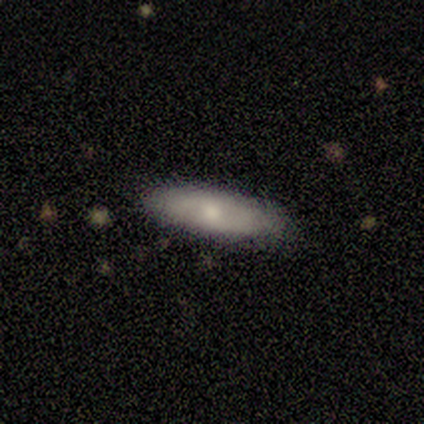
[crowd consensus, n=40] Overall: smooth (82%). How rounded: in between (52%; cigar-shaped 45%). Merging: none (97%).